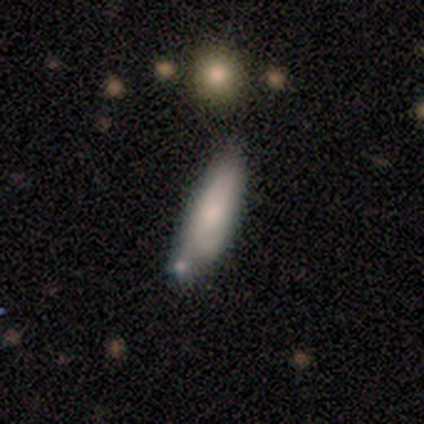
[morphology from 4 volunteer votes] A smooth galaxy with no disk features (75%) that is in between round and cigar-shaped (100%). Merging: none (50%, tied with minor disturbance).